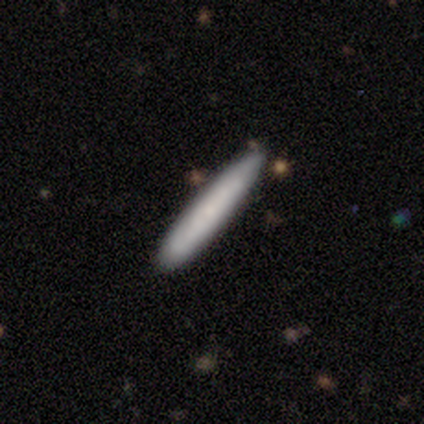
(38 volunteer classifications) Smooth or featured?
  - smooth: 76% *
  - featured or disk: 21%
  - star or artifact: 3%
How rounded?
  - cigar-shaped: 97% *
  - in between: 3%
  - round: 0%
Merging?
  - none: 86% *
  - merger: 8%
  - minor disturbance: 5%
  - major disturbance: 0%